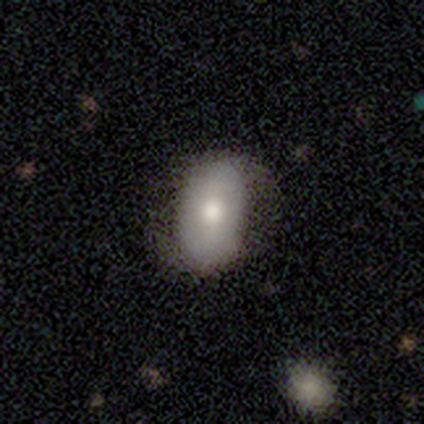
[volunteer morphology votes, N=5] Smooth or featured? featured or disk (60%)
Edge-on disk? no (100%)
Bar? strong (33%, tied with weak and no)
Spiral arms? yes (100%)
Spiral winding? tight (33%, tied with medium and loose)
Spiral arm count? 2 (100%)
Bulge size? dominant (67%)
Merging? none (80%)